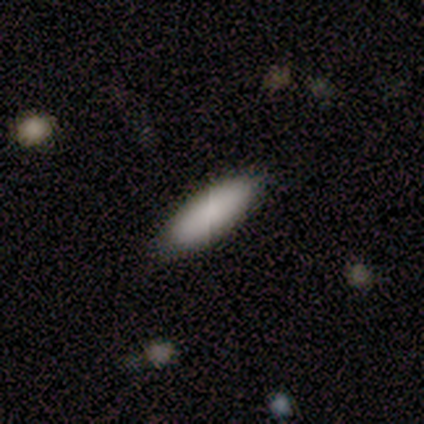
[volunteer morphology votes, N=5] Smooth or featured: smooth — 80% (star or artifact — 20%)
How rounded: in between — 75% (cigar-shaped — 25%)
Merging: none — 100%